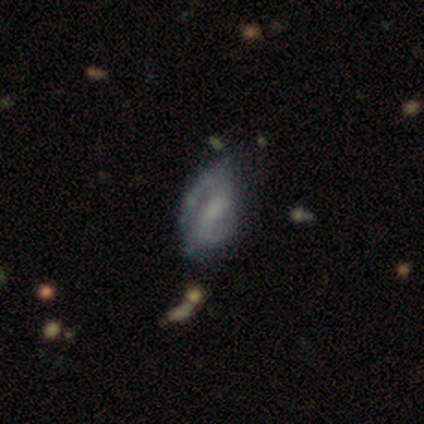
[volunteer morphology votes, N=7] smooth-or-featured: featured or disk: 100% | smooth: 0% | star or artifact: 0%
  disk-edge-on: no: 100% | yes: 0%
    bar: weak: 86% | strong: 14% | no: 0%
    has-spiral-arms: yes: 100% | no: 0%
      spiral-winding: tight: 57% | loose: 43% | medium: 0%
      spiral-arm-count: 2: 86% | can't tell: 14% | 1: 0% | 3: 0% | 4: 0% | more than 4: 0%
    bulge-size: small: 43% | moderate: 29% | none: 29% | dominant: 0% | large: 0%
  merging: minor disturbance: 57% | none: 43% | major disturbance: 0% | merger: 0%